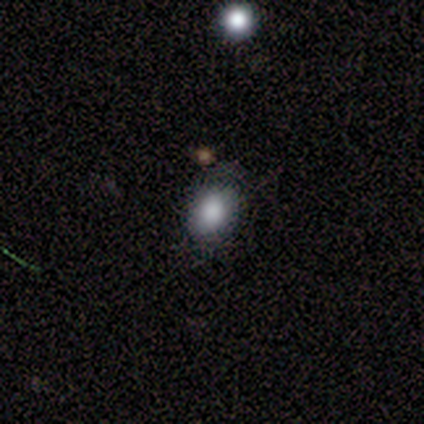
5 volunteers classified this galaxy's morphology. Smooth or featured: smooth — 60% (featured or disk — 20%)
How rounded: in between — 100%
Merging: none — 50% (tied with minor disturbance — 50%)